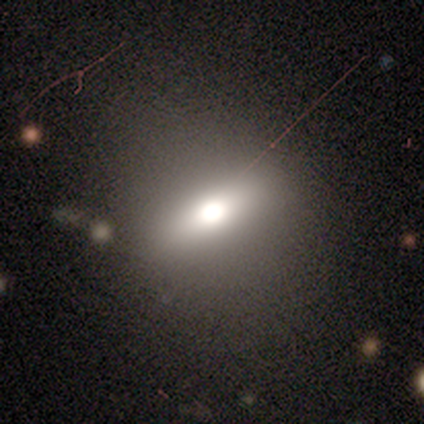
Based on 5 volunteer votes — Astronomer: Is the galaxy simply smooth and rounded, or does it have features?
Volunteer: smooth — 60%.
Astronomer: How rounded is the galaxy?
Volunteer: in between — 100%.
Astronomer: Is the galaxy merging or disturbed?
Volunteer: none — 50%.